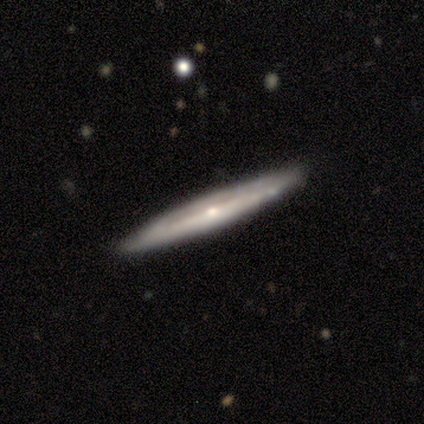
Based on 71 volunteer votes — Morphology: type=featured or disk (82%); edge-on=yes (88%); edge-on bulge=rounded (65%); merging=none (84%).